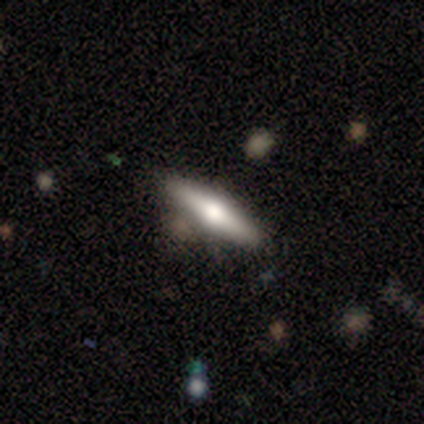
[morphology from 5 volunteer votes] A featured or disk galaxy (80%) viewed edge-on (100%) with a rounded central bulge (100%). Merging: none (80%).